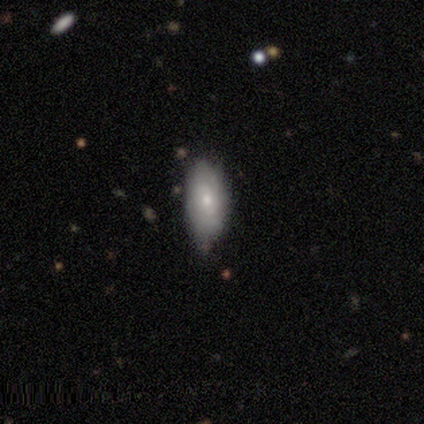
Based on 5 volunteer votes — Overall: featured or disk (60%; smooth 40%). Edge-on disk: no (100%). Bar: no (67%; weak 33%). Spiral arms: yes (100%). Spiral arm count: can't tell (67%; 4 33%). Spiral winding: tight (67%; medium 33%). Bulge size: small (67%; moderate 33%). Merging: none (80%).